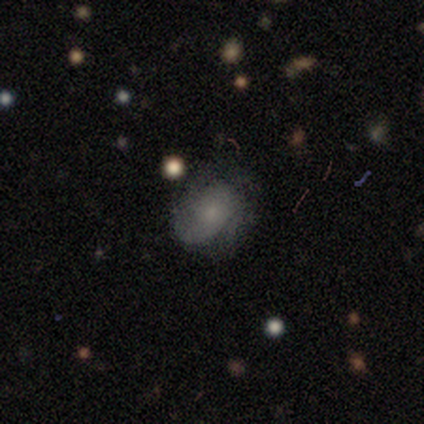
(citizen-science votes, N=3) smooth_or_featured: featured or disk (p=0.67) [alt: smooth p=0.33]
disk_edge_on: no (p=1.00)
bar: no (p=1.00)
has_spiral_arms: no (p=1.00)
bulge_size: small (p=0.50) [tied with: none p=0.50]
merging: minor disturbance (p=0.67) [alt: none p=0.33]